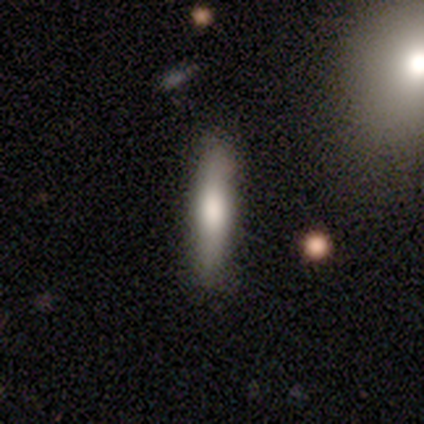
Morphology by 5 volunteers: A smooth galaxy with no disk features (40%, tied with featured or disk) that is cigar-shaped (100%).

Vote fractions:
- Smooth or featured? smooth: 40% (tied) / featured or disk: 40% (tied) / star or artifact: 20%
- How rounded? cigar-shaped: 100% / round: 0% / in between: 0%
- Merging? none: 100% / minor disturbance: 0% / major disturbance: 0% / merger: 0%